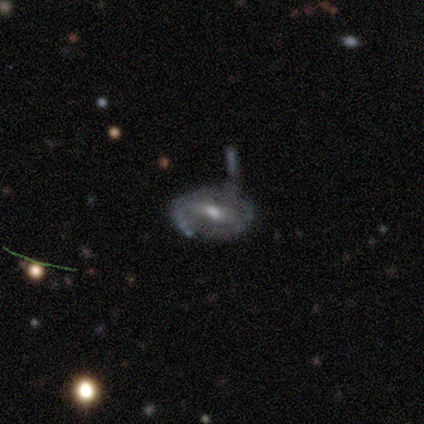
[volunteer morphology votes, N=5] Smooth or featured: featured or disk — 80% (smooth — 20%)
Edge-on disk: no — 100%
Bar: strong — 50% (tied with weak — 50%)
Spiral arms: yes — 50% (tied with no — 50%)
Spiral winding: tight — 50% (tied with medium — 50%)
Spiral arm count: 2 — 50% (tied with can't tell — 50%)
Bulge size: moderate — 75% (small — 25%)
Merging: major disturbance — 40% (none — 20%)